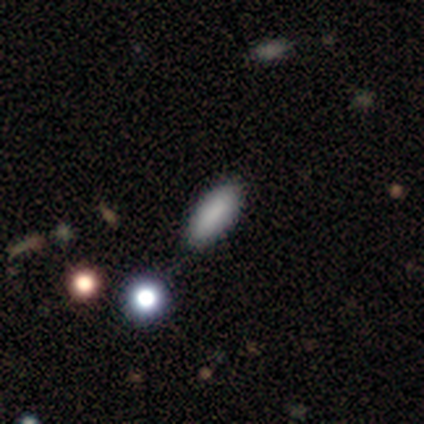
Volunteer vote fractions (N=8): Smooth or featured: smooth — 100%
How rounded: in between — 75% (cigar-shaped — 25%)
Merging: none — 88% (merger — 12%)